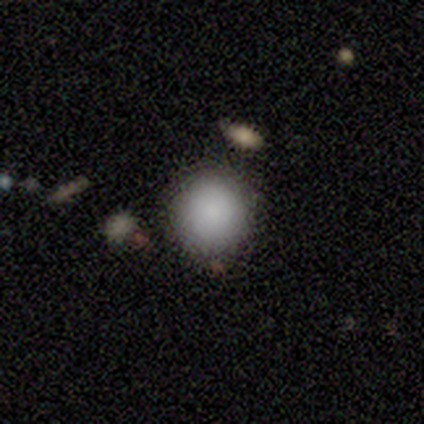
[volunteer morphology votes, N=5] smooth-or-featured: smooth: 100% | featured or disk: 0% | star or artifact: 0%
  how-rounded: round: 100% | in between: 0% | cigar-shaped: 0%
  merging: none: 100% | minor disturbance: 0% | major disturbance: 0% | merger: 0%